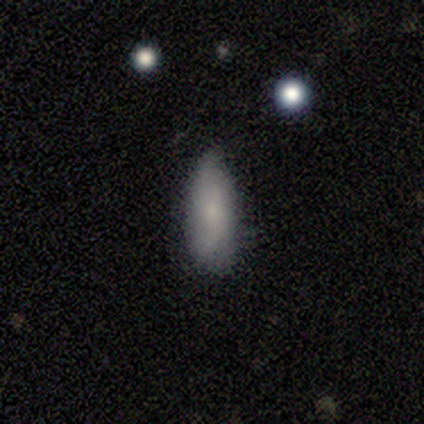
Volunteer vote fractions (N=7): This is clearly a smooth galaxy (86%). How rounded: clearly in between (100%). Merging: likely none (71%).